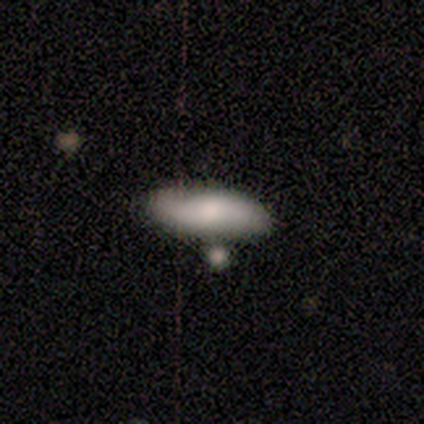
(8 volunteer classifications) Overall: smooth (50%; featured or disk 38%). How rounded: in between (75%). Merging: none (86%).